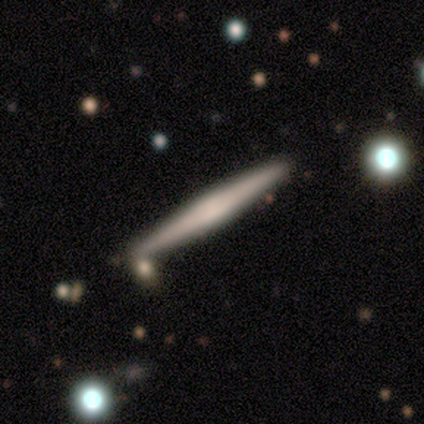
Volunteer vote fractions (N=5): This appears to be a smooth galaxy with no disk features (40%, tied with featured or disk) that is cigar-shaped (100%). Merging: none (100%).